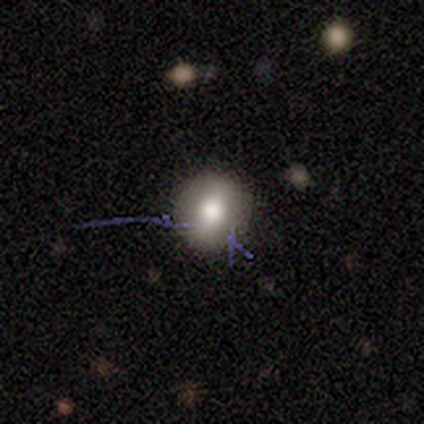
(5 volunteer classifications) A star or artifact, not a galaxy (60%).

Vote fractions:
- Smooth or featured? star or artifact: 60% / smooth: 40% / featured or disk: 0%